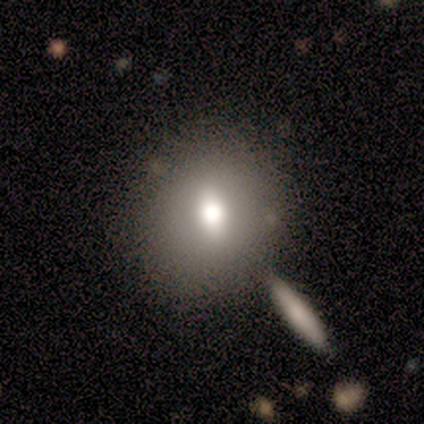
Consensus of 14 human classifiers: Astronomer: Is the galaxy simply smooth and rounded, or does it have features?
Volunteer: smooth — 64%.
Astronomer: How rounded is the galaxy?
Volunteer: round — 78%.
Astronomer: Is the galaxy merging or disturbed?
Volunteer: none — 92%.